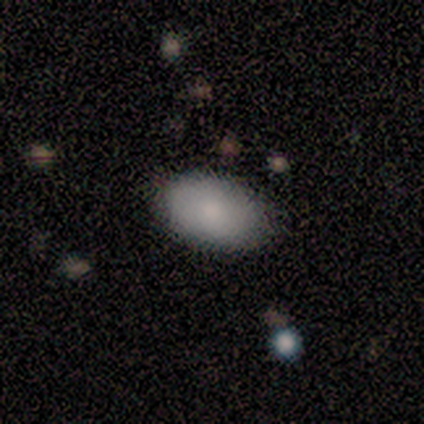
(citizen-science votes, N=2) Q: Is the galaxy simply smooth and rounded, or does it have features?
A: smooth — 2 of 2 (100%).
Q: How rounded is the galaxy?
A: in between — 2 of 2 (100%).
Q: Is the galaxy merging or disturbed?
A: none — 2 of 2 (100%).